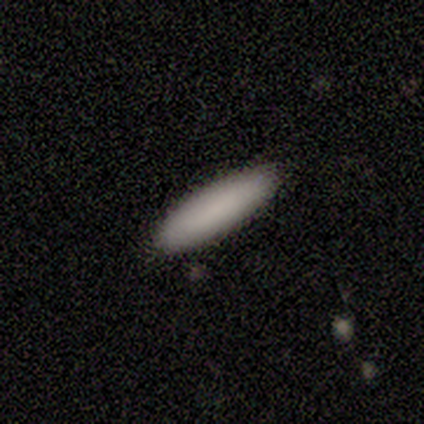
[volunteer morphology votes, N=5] Volunteers were most divided on "how rounded": in between: 60%, cigar-shaped: 40%, round: 0%. More confident: smooth or featured — smooth (100%); merging — none (100%).